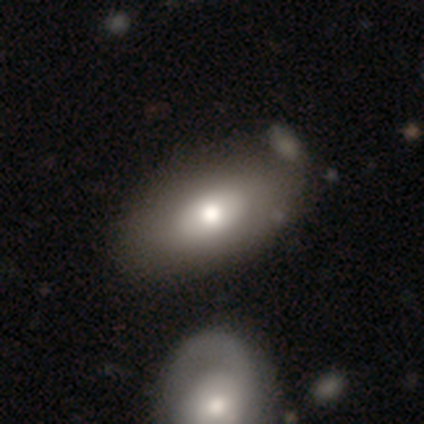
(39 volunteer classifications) This appears to be a smooth galaxy with no disk features (74%) that is in between round and cigar-shaped (97%). Merging: none (56%).